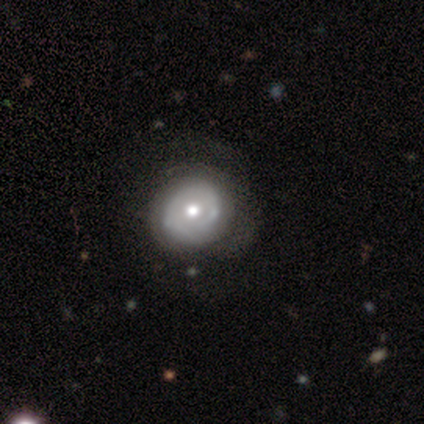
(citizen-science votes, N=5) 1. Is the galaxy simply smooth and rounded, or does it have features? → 60% featured or disk, 40% smooth, 0% star or artifact.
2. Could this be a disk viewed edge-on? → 100% no, 0% yes.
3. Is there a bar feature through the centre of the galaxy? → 100% no, 0% strong, 0% weak.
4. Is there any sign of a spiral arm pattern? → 67% no, 33% yes.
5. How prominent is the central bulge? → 67% moderate, 33% small, 0% dominant, 0% large, 0% none.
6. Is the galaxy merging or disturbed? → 60% none, 40% minor disturbance, 0% major disturbance, 0% merger.